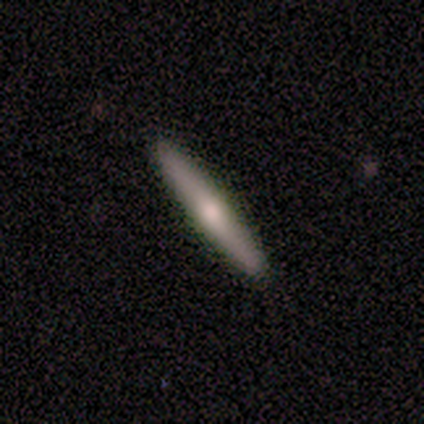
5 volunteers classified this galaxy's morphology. Smooth or featured? smooth (60%)
How rounded? cigar-shaped (100%)
Merging? none (100%)